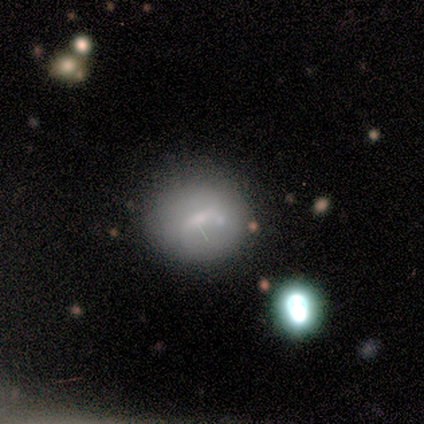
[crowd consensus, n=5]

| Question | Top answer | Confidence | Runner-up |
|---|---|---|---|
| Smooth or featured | featured or disk | 60% | smooth (40%) |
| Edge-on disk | no | 100% | — |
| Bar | weak | 100% | — |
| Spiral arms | no | 67% | yes (33%) |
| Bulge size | small | 67% | moderate (33%) |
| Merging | none | 80% | minor disturbance (20%) |